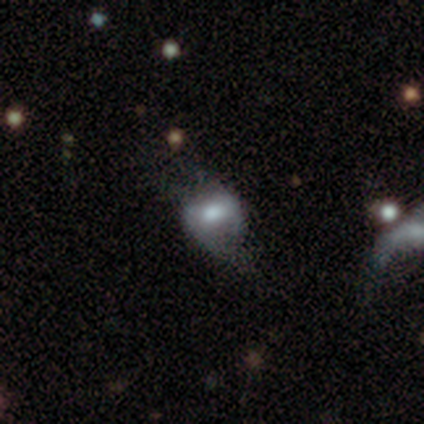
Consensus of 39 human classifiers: Volunteers were most divided on "smooth or featured" (2-way tie): smooth: 46%, featured or disk: 46%, star or artifact: 8%. Remaining: how rounded — in between (72%); merging — none (33%).